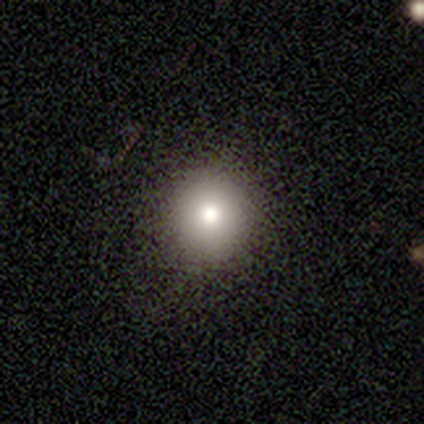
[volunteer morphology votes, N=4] This appears to be a smooth galaxy with no disk features (75%) that is round (100%). Merging: none (75%).